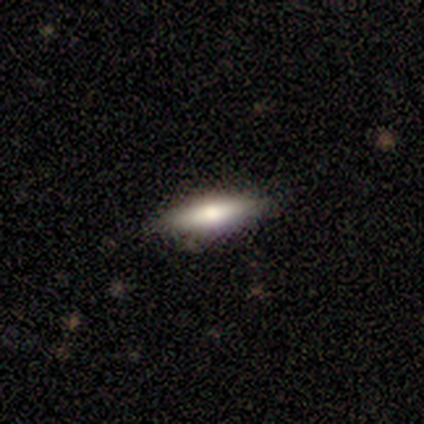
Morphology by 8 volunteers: smooth_or_featured: smooth (p=0.62) [alt: featured or disk p=0.38]
how_rounded: cigar-shaped (p=0.60) [alt: in between p=0.40]
merging: none (p=1.00)